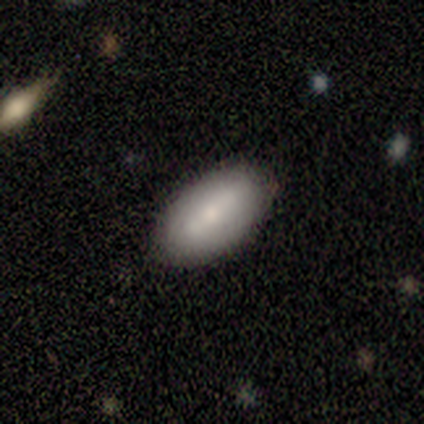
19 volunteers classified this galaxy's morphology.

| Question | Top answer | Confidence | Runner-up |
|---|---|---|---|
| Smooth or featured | smooth | 58% | featured or disk (37%) |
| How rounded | in between | 91% | cigar-shaped (9%) |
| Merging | none | 89% | minor disturbance (6%) |